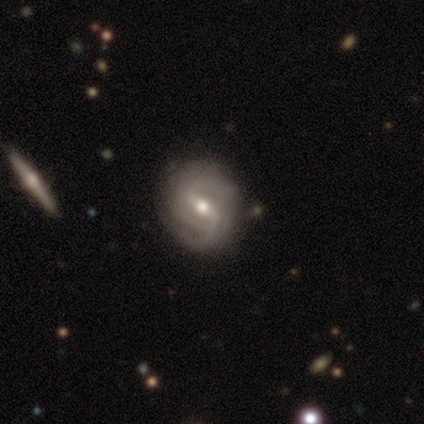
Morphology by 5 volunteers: smooth_or_featured: featured or disk (p=1.00)
disk_edge_on: no (p=1.00)
bar: strong (p=0.60) [alt: weak p=0.40]
has_spiral_arms: yes (p=1.00)
spiral_winding: tight (p=0.60) [alt: medium p=0.40]
spiral_arm_count: 2 (p=0.40) [tied with: 3 p=0.40]
bulge_size: moderate (p=0.60) [alt: small p=0.40]
merging: none (p=0.80) [alt: minor disturbance p=0.20]